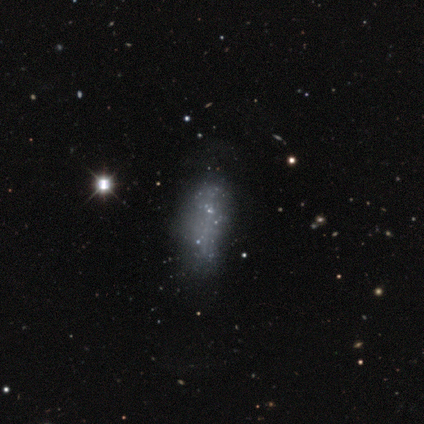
Q: Smooth or featured?
A: featured or disk (67%); runner-up: star or artifact (25%)
Q: Edge-on disk?
A: no (100%)
Q: Bar?
A: no (88%); runner-up: weak (12%)
Q: Spiral arms?
A: no (100%)
Q: Bulge size?
A: none (88%); runner-up: small (12%)
Q: Merging?
A: none (56%); runner-up: major disturbance (22%)